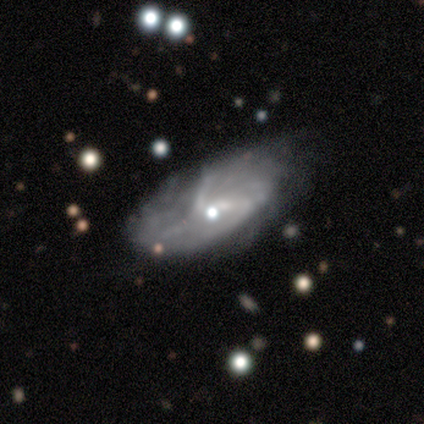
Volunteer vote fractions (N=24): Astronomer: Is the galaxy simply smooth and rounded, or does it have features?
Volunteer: featured or disk — 67%.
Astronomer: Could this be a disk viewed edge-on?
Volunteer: no — 100%.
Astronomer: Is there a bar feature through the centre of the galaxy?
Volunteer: no — 81%.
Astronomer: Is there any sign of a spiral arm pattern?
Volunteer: yes — 81%.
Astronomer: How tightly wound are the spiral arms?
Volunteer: tight — 62%.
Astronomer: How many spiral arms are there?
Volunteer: can't tell — 46%.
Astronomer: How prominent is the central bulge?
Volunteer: moderate — 31%, tied with small and none at 31%.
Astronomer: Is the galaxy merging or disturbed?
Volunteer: none — 42% (runner-up: minor disturbance, 32%).